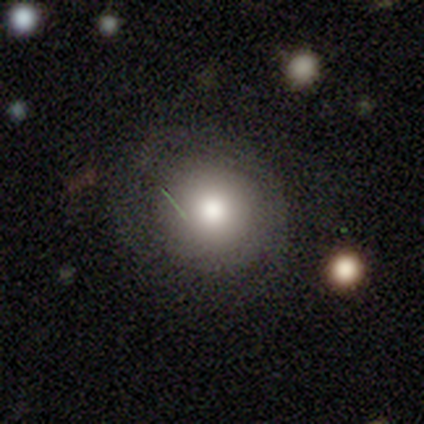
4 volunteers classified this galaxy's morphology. Smooth or featured: featured or disk — 75% (smooth — 25%)
Edge-on disk: no — 100%
Bar: no — 100%
Spiral arms: no — 67% (yes — 33%)
Bulge size: small — 67% (moderate — 33%)
Merging: none — 50% (minor disturbance — 25%)